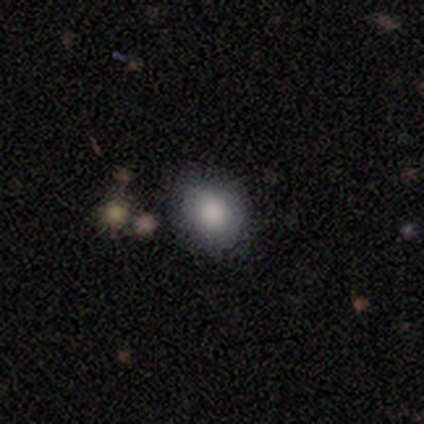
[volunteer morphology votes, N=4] Overall: smooth (50%; featured or disk 25%). How rounded: round (50%, tied with in between). Merging: none (67%; minor disturbance 33%).